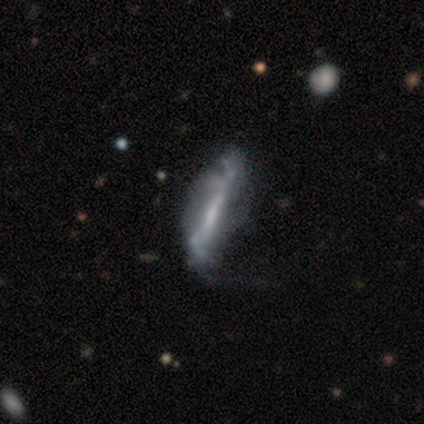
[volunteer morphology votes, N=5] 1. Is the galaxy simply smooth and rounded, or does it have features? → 100% featured or disk, 0% smooth, 0% star or artifact.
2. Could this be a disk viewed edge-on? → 60% no, 40% yes.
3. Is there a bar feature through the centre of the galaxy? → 67% strong, 33% no, 0% weak.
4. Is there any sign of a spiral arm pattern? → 67% yes, 33% no.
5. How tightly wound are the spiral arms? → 50% medium (tied), 50% loose (tied), 0% tight.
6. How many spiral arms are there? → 50% 2 (tied), 50% can't tell (tied), 0% 1, 0% 3, 0% 4, 0% more than 4.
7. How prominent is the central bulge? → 67% none, 33% small, 0% dominant, 0% large, 0% moderate.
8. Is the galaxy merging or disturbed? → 60% none, 40% minor disturbance, 0% major disturbance, 0% merger.